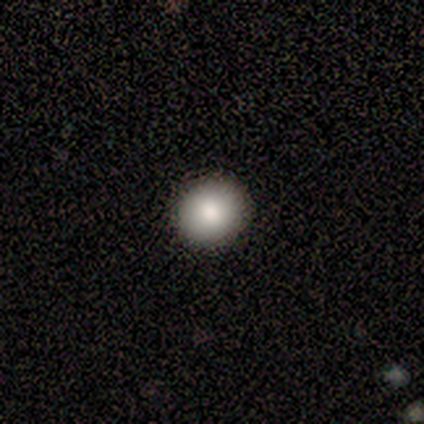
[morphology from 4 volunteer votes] A smooth galaxy with no disk features (75%) that is round (100%). Merging: none (100%).